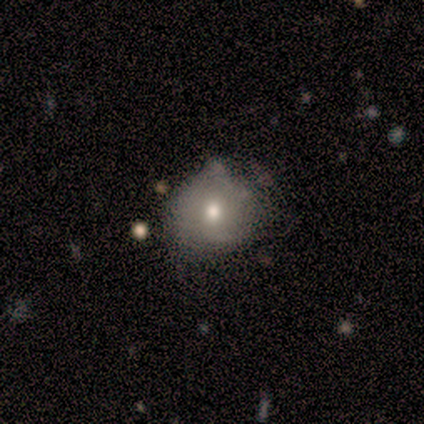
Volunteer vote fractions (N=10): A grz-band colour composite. It shows a smooth galaxy with no disk features (60%) that is round (83%). Merging: none (75%).